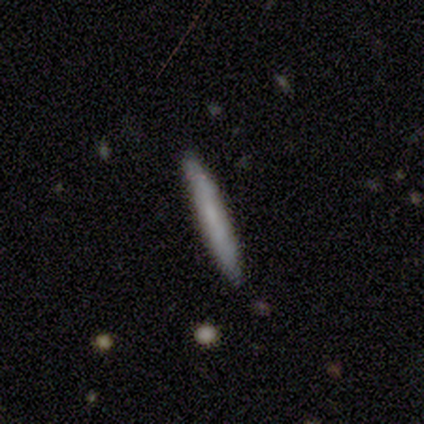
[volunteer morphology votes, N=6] Smooth or featured? smooth (100%)
How rounded? cigar-shaped (100%)
Merging? none (100%)